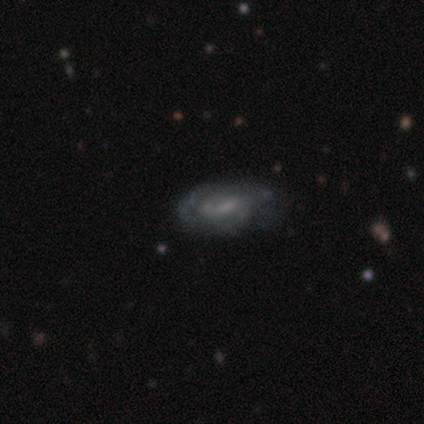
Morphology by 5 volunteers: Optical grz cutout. It shows a featured or disk galaxy (60%) with no bar (67%), 1 (33%, tied with 2 and can't tell) tight (67%) spiral arms (100%) and a small central bulge (100%). Merging: none (60%).